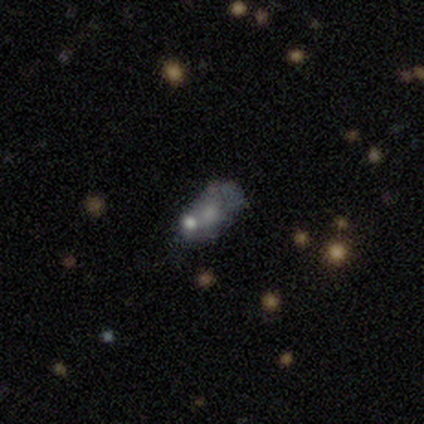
Volunteers were most divided on "smooth or featured" (2-way tie): smooth: 40%, featured or disk: 40%, star or artifact: 20%; "how rounded" (2-way tie): round: 50%, in between: 50%, cigar-shaped: 0%. More confident: merging — none (50%).